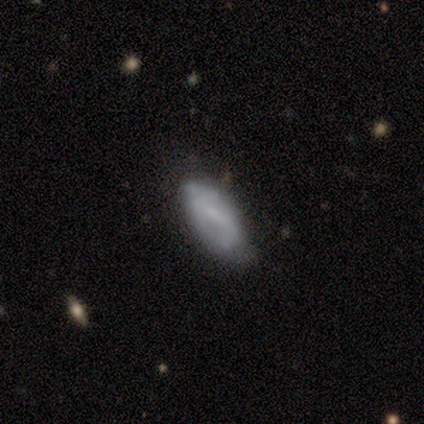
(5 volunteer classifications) Smooth or featured?
  - smooth: 80% *
  - featured or disk: 20%
  - star or artifact: 0%
How rounded?
  - in between: 100% *
  - round: 0%
  - cigar-shaped: 0%
Merging?
  - none: 60% *
  - minor disturbance: 40%
  - major disturbance: 0%
  - merger: 0%